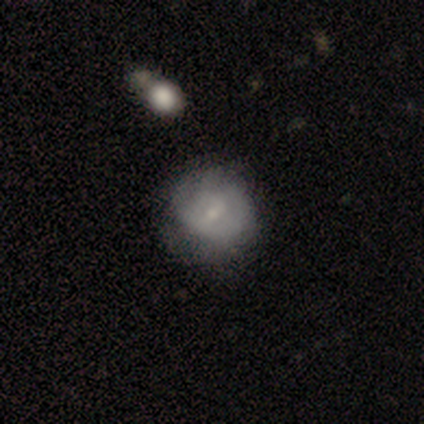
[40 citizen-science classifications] smooth-or-featured: smooth: 50% | featured or disk: 48% | star or artifact: 2%
  how-rounded: round: 85% | in between: 15% | cigar-shaped: 0%
  merging: none: 49% | minor disturbance: 23% | major disturbance: 3% | merger: 3%